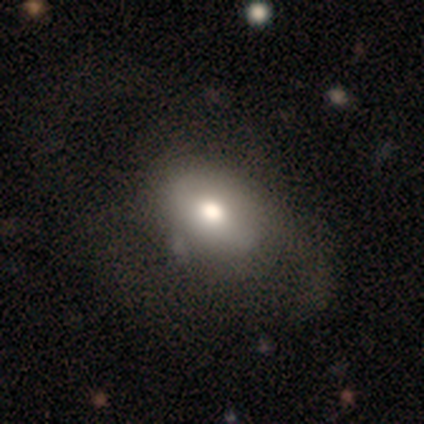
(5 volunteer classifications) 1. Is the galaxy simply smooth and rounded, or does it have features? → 40% featured or disk (tied), 40% star or artifact (tied), 20% smooth.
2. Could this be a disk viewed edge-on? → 100% no, 0% yes.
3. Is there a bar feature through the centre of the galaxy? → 50% strong (tied), 50% no (tied), 0% weak.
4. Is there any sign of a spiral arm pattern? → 100% yes, 0% no.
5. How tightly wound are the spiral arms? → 50% tight (tied), 50% medium (tied), 0% loose.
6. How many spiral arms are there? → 50% 2 (tied), 50% 4 (tied), 0% 1, 0% 3, 0% more than 4, 0% can't tell.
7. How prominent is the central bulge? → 50% large (tied), 50% small (tied), 0% dominant, 0% moderate, 0% none.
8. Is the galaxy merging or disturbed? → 67% major disturbance, 33% none, 0% minor disturbance, 0% merger.